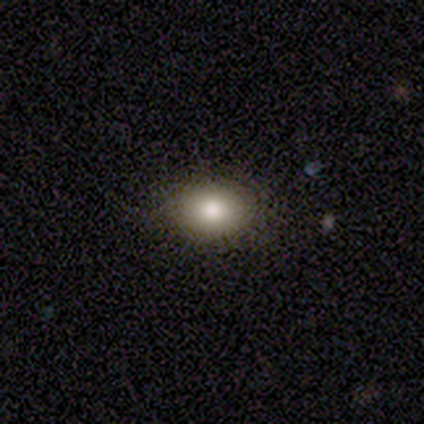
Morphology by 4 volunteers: smooth 100%, featured or disk 0%, star or artifact 0%. Down the decision tree: how rounded — round (50%, tied with in between); merging — none (75%).